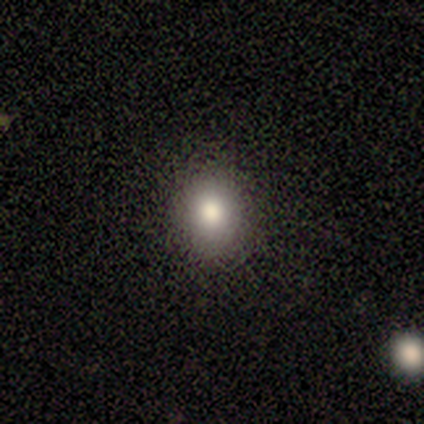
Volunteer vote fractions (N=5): Smooth or featured? 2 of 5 (40%, tied with featured or disk) said smooth. How rounded? 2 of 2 (100%) said round. Merging? 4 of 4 (100%) said none.